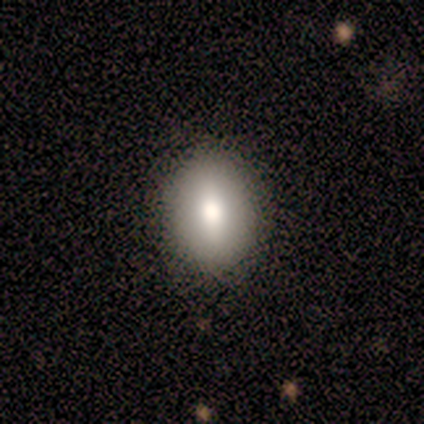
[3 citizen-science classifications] Smooth or featured: featured or disk — 67% (smooth — 33%)
Edge-on disk: no — 100%
Bar: weak — 50% (tied with no — 50%)
Spiral arms: no — 100%
Bulge size: moderate — 100%
Merging: none — 100%